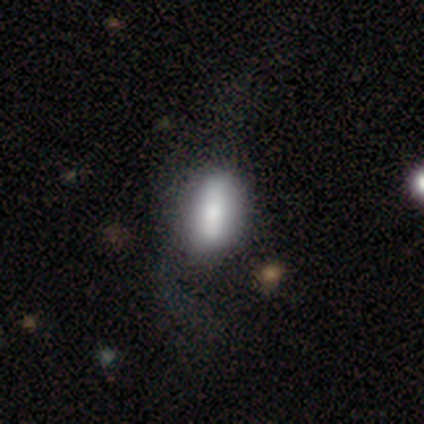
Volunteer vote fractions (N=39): Smooth or featured? smooth (74%)
How rounded? in between (79%)
Merging? none (44%)